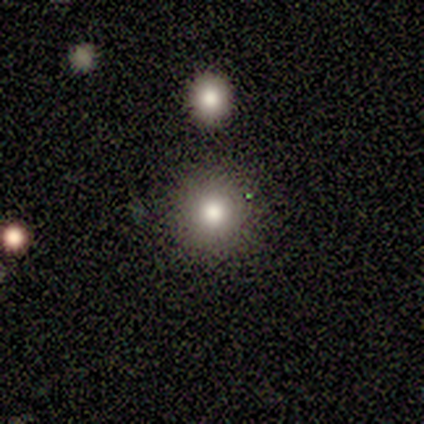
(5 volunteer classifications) A smooth galaxy with no disk features (80%) that is round (100%).

Vote fractions:
- Smooth or featured? smooth: 80% / featured or disk: 20% / star or artifact: 0%
- How rounded? round: 100% / in between: 0% / cigar-shaped: 0%
- Merging? none: 80% / merger: 20% / minor disturbance: 0% / major disturbance: 0%